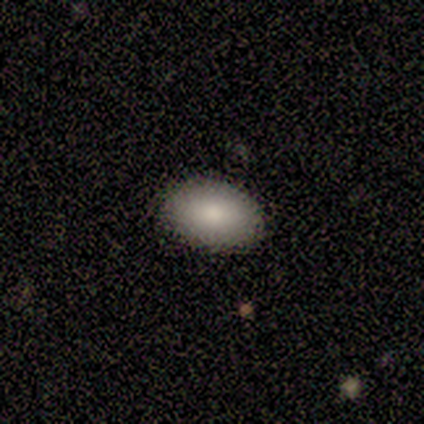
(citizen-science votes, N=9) Smooth or featured? 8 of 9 (89%) said smooth. How rounded? 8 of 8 (100%) said in between. Merging? 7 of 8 (88%) said none.